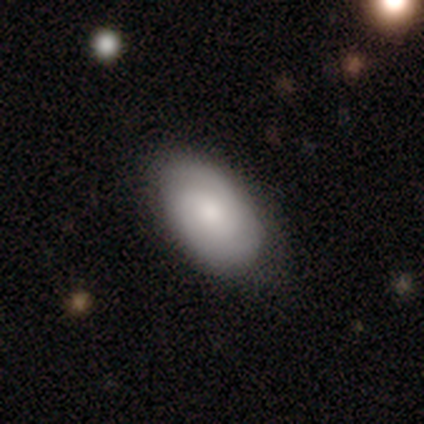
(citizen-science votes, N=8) A featured or disk galaxy (50%) with a weak bar (50%, tied with no), 2 (50%, tied with 3) tight (100%) spiral arms (100%) and a moderate central bulge (100%). Merging: none (100%).